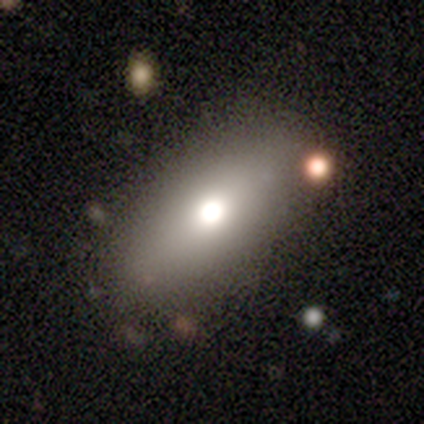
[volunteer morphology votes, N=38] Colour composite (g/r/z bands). It shows a smooth galaxy with no disk features (74%) that is in between round and cigar-shaped (75%). Merging: none (79%).